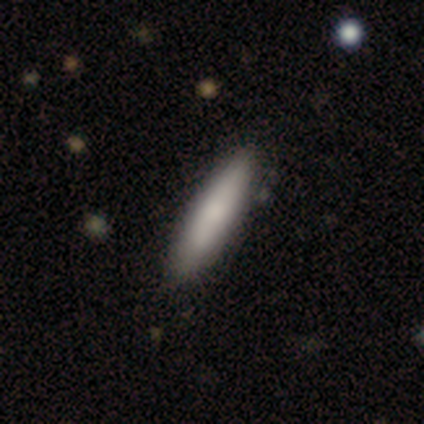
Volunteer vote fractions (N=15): smooth 73%, featured or disk 13%, star or artifact 13%. Down the decision tree: how rounded — cigar-shaped (73%); merging — none (100%).